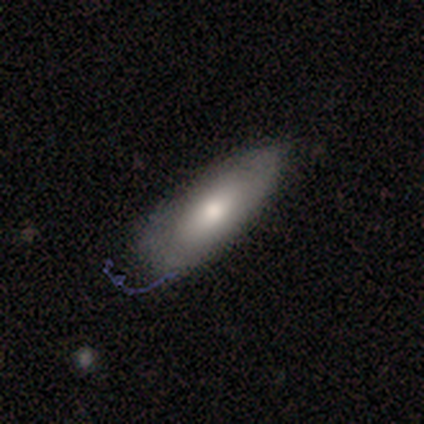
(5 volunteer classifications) smooth_or_featured: smooth (p=0.80) [alt: featured or disk p=0.20]
how_rounded: in between (p=0.75) [alt: cigar-shaped p=0.25]
merging: none (p=0.40) [tied with: minor disturbance p=0.40]